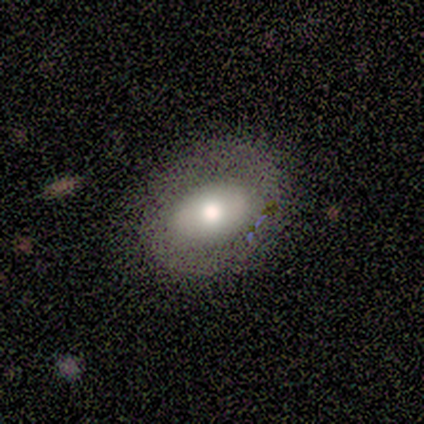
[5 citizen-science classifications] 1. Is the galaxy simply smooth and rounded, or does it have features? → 60% smooth, 40% featured or disk, 0% star or artifact.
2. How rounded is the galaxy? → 67% round, 33% in between, 0% cigar-shaped.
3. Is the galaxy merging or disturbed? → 100% none, 0% minor disturbance, 0% major disturbance, 0% merger.